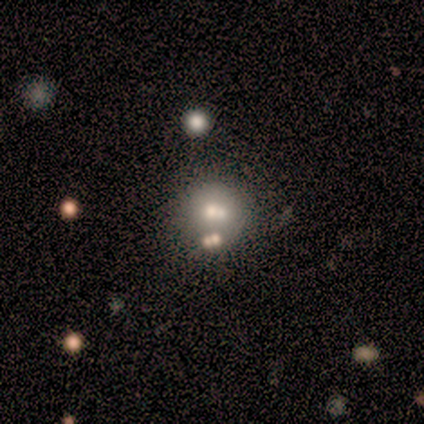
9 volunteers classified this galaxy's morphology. A smooth galaxy with no disk features (78%) that is round (71%).

Vote fractions:
- Smooth or featured? smooth: 78% / featured or disk: 11% / star or artifact: 11%
- How rounded? round: 71% / in between: 29% / cigar-shaped: 0%
- Merging? merger: 38% / none: 25% / minor disturbance: 25% / major disturbance: 12%